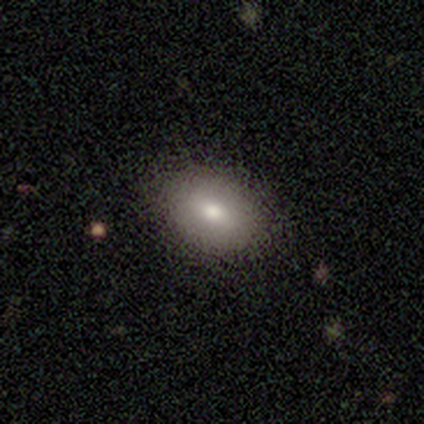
This is likely a smooth galaxy (60%). How rounded: likely in between (67%). Merging: likely none (75%).